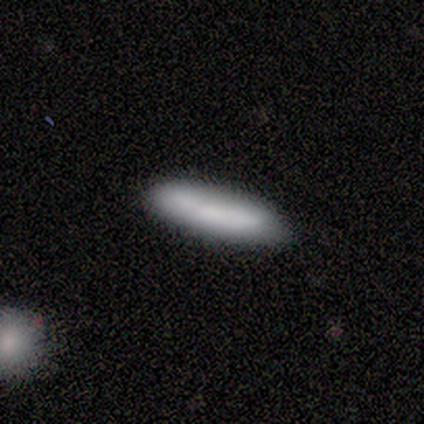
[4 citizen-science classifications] Volunteers were most divided on "how rounded" (2-way tie): in between: 50%, cigar-shaped: 50%, round: 0%. More confident: smooth or featured — smooth (100%); merging — none (100%).